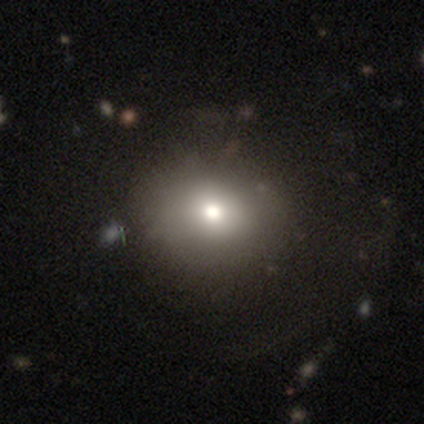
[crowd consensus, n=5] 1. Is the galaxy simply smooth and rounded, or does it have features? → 60% star or artifact, 40% smooth, 0% featured or disk.